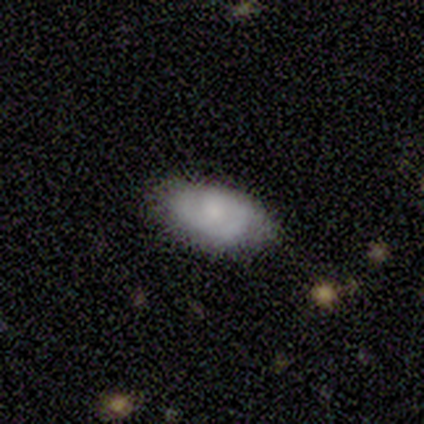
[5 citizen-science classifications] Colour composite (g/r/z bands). It shows a smooth galaxy with no disk features (80%) that is in between round and cigar-shaped (100%). Merging: none (100%).